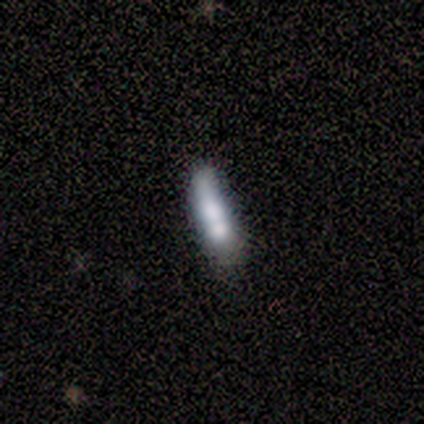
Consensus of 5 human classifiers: A smooth galaxy with no disk features (40%, tied with featured or disk) that is cigar-shaped (100%).

Vote fractions:
- Smooth or featured? smooth: 40% (tied) / featured or disk: 40% (tied) / star or artifact: 20%
- How rounded? cigar-shaped: 100% / round: 0% / in between: 0%
- Merging? merger: 50% / none: 25% / minor disturbance: 25% / major disturbance: 0%